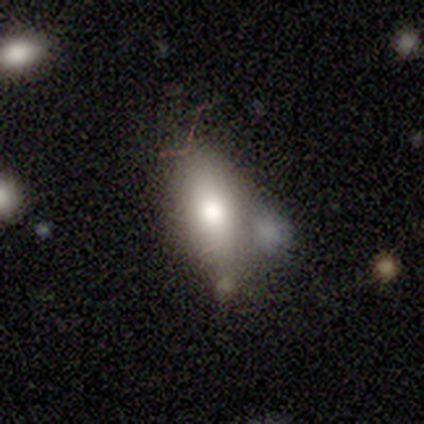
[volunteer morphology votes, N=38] Volunteers were most divided on "merging": none: 44%, minor disturbance: 29%, merger: 18%, major disturbance: 9%. More confident: how rounded — in between (76%); smooth or featured — smooth (55%).